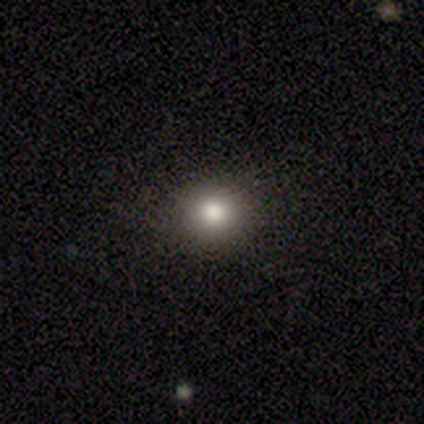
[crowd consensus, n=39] This appears to be a smooth galaxy with no disk features (72%) that is round (86%). Merging: none (88%).